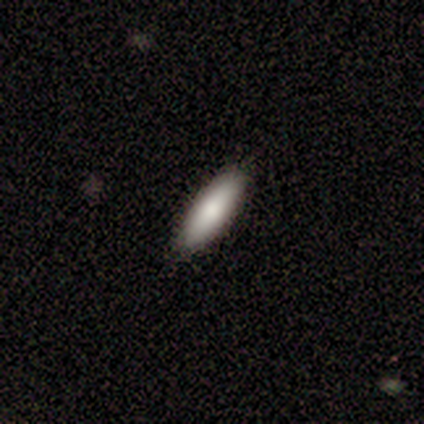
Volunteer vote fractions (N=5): Smooth or featured?
  - smooth: 100% *
  - featured or disk: 0%
  - star or artifact: 0%
How rounded?
  - in between: 60% *
  - cigar-shaped: 40%
  - round: 0%
Merging?
  - none: 80% *
  - minor disturbance: 20%
  - major disturbance: 0%
  - merger: 0%